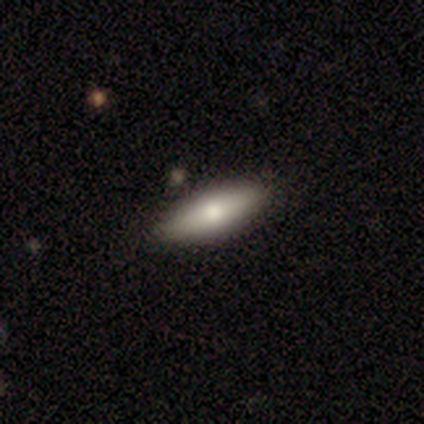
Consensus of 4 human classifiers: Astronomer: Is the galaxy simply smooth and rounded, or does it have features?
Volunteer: smooth — 50%, tied with featured or disk at 50%.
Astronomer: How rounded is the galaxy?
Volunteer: in between — 100%.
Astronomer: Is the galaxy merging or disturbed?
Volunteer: none — 100%.